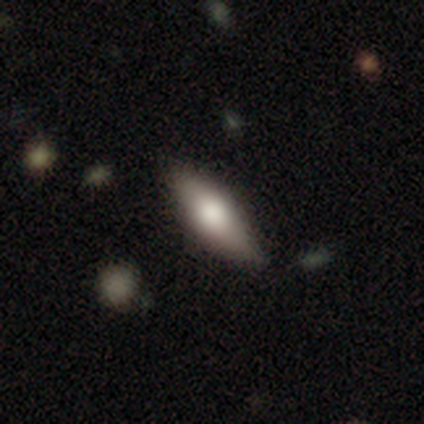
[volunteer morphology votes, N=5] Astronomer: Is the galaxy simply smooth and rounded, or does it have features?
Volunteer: smooth — 40%, tied with featured or disk at 40%.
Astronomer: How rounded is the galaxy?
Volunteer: in between — 100%.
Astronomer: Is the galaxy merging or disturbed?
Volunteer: none — 100%.